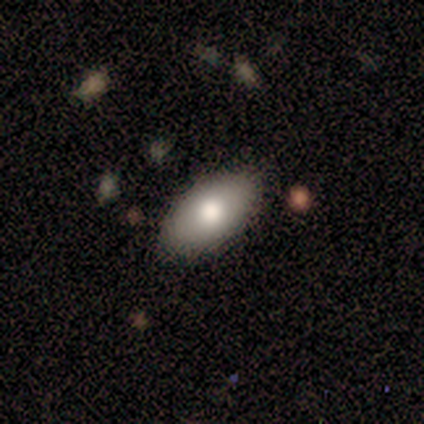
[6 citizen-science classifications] Morphology: type=smooth (83%); roundness=in between (100%); merging=none (83%).